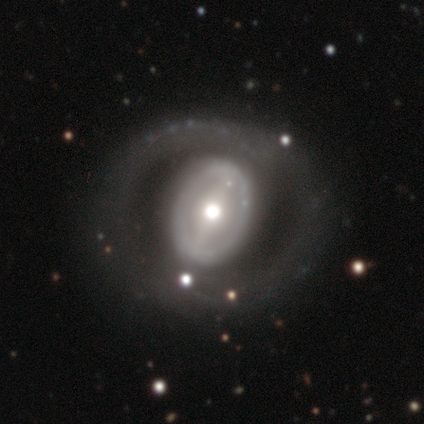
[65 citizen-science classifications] A featured or disk galaxy (82%) with a strong bar (46%), no spiral arms (70%) and a moderate central bulge (64%).

Vote fractions:
- Smooth or featured? featured or disk: 82% / smooth: 11% / star or artifact: 8%
- Edge-on disk? no: 94% / yes: 6%
- Bar? strong: 46% / weak: 28% / no: 26%
- Spiral arms? no: 70% / yes: 30%
- Bulge size? moderate: 64% / large: 26% / small: 8% / dominant: 2% / none: 0%
- Merging? none: 60% / major disturbance: 17% / minor disturbance: 10% / merger: 2%